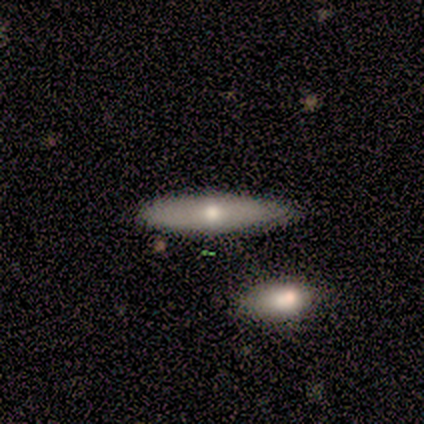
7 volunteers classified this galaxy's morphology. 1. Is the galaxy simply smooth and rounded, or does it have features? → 86% smooth, 14% featured or disk, 0% star or artifact.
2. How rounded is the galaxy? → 67% in between, 33% cigar-shaped, 0% round.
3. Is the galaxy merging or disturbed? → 86% none, 14% minor disturbance, 0% major disturbance, 0% merger.